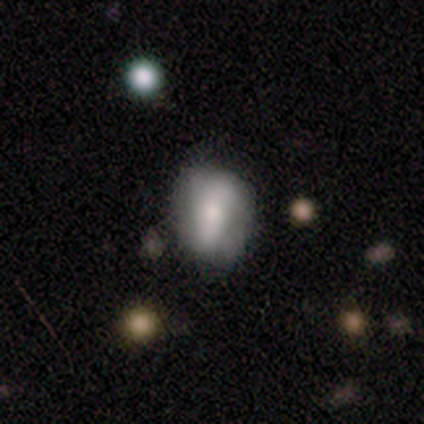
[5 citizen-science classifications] Smooth or featured: smooth — 80% (featured or disk — 20%)
How rounded: in between — 75% (round — 25%)
Merging: none — 60% (minor disturbance — 20%)